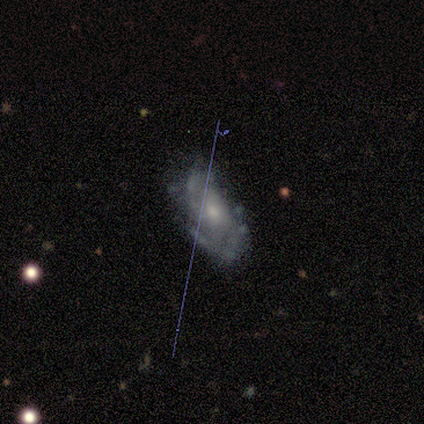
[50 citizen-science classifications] featured or disk 66%, smooth 22%, star or artifact 12%. Down the decision tree: edge-on disk — no (100%); bar — no (82%); spiral arms — yes (76%); spiral arm count — 2 (52%); spiral winding — medium (56%); bulge size — moderate (58%); merging — none (55%).